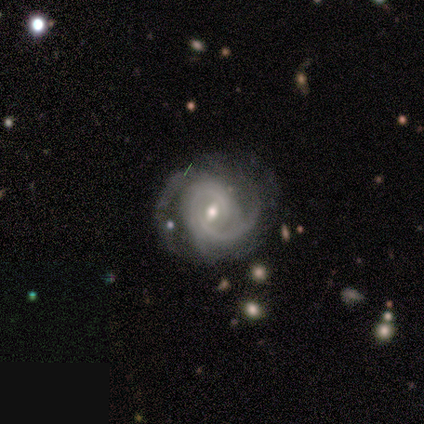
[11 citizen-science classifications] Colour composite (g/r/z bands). It shows a featured or disk galaxy (91%) with a weak bar (70%), 2 (50%) tight (50%) spiral arms (100%) and a moderate central bulge (80%). Merging: none (50%, tied with minor disturbance).